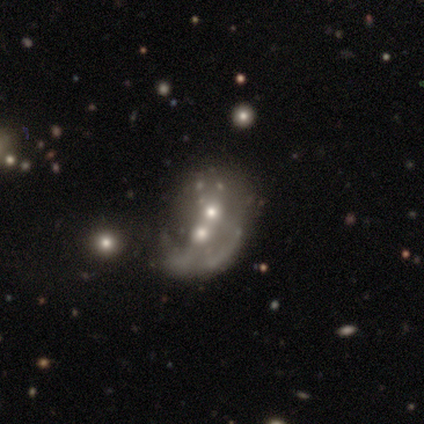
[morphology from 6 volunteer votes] A featured or disk galaxy (67%) with no bar (100%), no spiral arms (75%) and a moderate central bulge (75%). Merging: merger (83%).